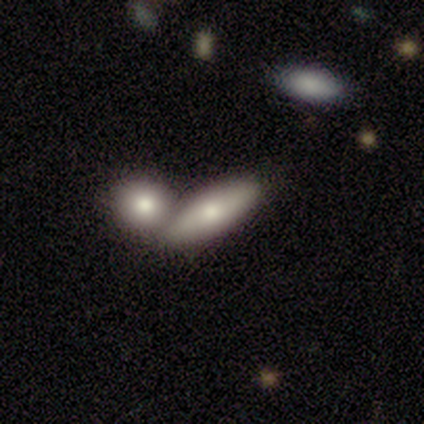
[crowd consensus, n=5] smooth 80%, featured or disk 20%, star or artifact 0%. Down the decision tree: how rounded — in between (100%); merging — merger (80%).